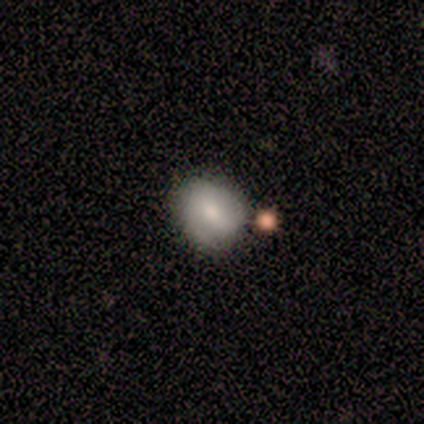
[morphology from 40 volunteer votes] Q: Smooth or featured?
A: smooth (57%); runner-up: featured or disk (30%)
Q: How rounded?
A: round (52%); runner-up: in between (48%)
Q: Merging?
A: none (54%); runner-up: merger (11%)